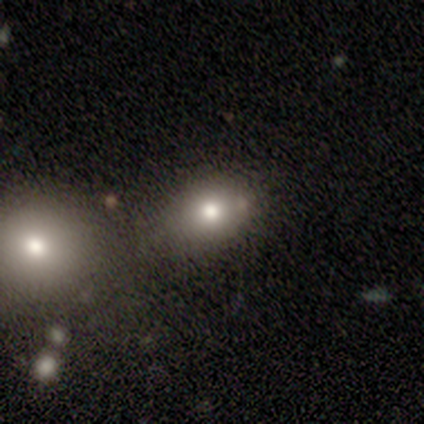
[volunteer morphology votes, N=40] Smooth or featured? smooth (78%)
How rounded? in between (71%)
Merging? none (61%)